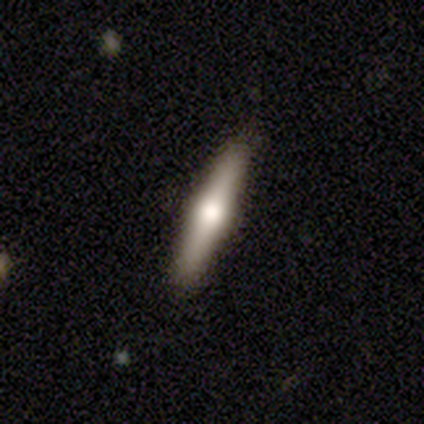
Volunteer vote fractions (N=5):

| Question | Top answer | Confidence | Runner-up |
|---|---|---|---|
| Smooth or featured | smooth | 40% | tied: featured or disk (40%) |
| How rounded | cigar-shaped | 100% | — |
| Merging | none | 75% | minor disturbance (25%) |